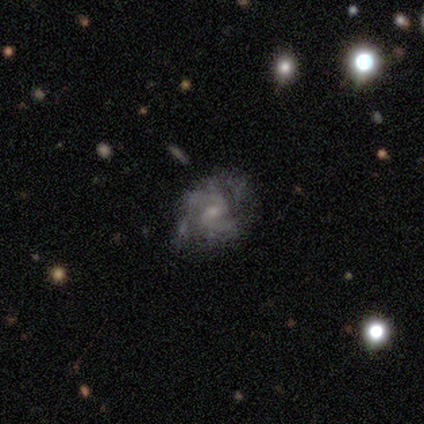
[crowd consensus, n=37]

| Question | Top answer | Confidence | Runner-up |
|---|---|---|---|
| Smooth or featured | featured or disk | 86% | star or artifact (11%) |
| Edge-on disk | no | 100% | — |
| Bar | weak | 53% | no (41%) |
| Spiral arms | yes | 94% | no (6%) |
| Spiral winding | medium | 70% | loose (20%) |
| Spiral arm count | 2 | 57% | can't tell (33%) |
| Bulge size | small | 53% | moderate (38%) |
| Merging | none | 39% | minor disturbance (9%) |